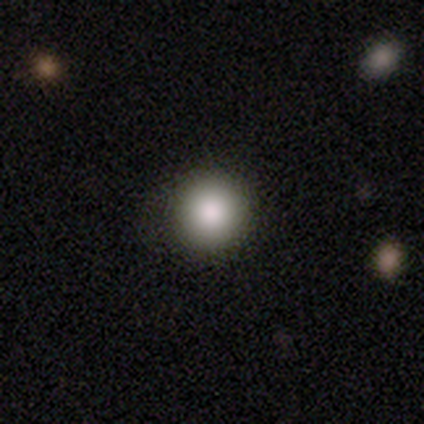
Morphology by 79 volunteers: smooth 84%, star or artifact 9%, featured or disk 8%. Down the decision tree: how rounded — round (100%); merging — none (92%).